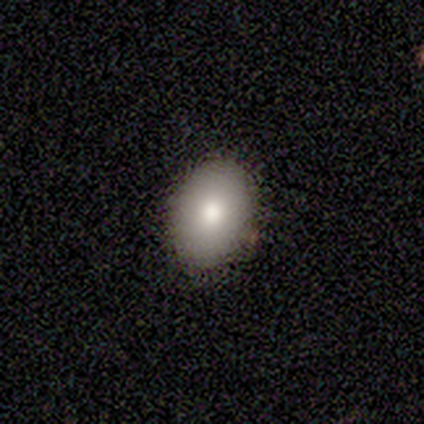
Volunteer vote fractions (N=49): Q: Smooth or featured?
A: smooth (84%); runner-up: featured or disk (12%)
Q: How rounded?
A: in between (85%); runner-up: round (15%)
Q: Merging?
A: none (89%); runner-up: minor disturbance (11%)